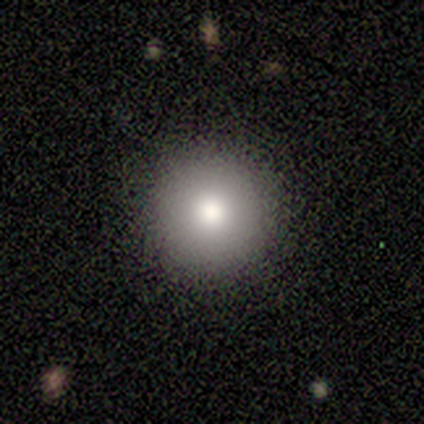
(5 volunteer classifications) Consensus on every question: smooth or featured — smooth (100%); how rounded — round (100%); merging — none (100%).